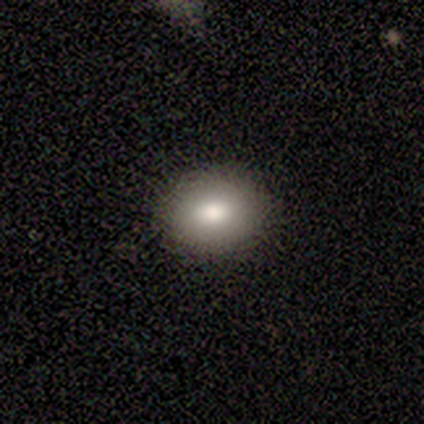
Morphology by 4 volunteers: Smooth or featured? smooth (100%)
How rounded? in between (75%)
Merging? none (100%)